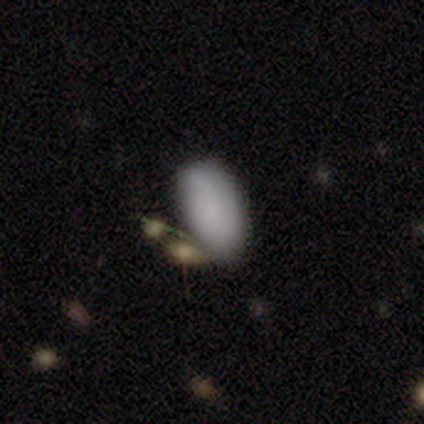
smooth-or-featured: smooth: 77% | star or artifact: 12% | featured or disk: 10%
  how-rounded: in between: 92% | cigar-shaped: 5% | round: 3%
  merging: none: 50% | minor disturbance: 24% | merger: 19% | major disturbance: 7%